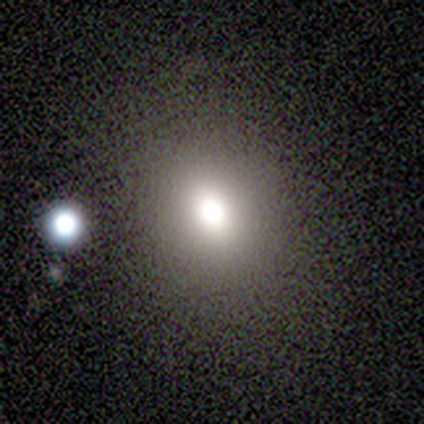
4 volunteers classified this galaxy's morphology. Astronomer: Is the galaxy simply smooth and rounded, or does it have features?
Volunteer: smooth — 75%.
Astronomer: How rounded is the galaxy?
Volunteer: round — 67%.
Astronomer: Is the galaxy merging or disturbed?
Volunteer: none — 75%.